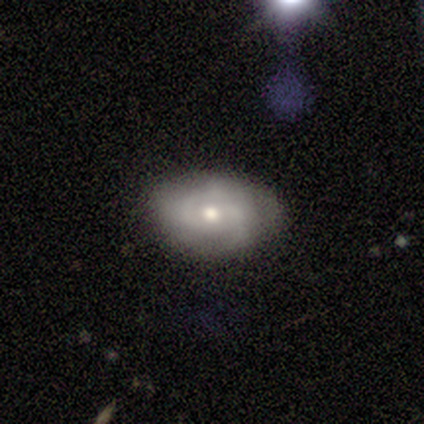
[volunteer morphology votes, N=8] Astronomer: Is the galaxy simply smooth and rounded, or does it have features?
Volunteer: featured or disk — 75%.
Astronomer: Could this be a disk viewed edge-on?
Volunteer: no — 100%.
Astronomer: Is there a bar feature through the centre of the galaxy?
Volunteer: no — 67%.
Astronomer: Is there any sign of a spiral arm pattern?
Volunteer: yes — 100%.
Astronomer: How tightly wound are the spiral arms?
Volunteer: tight — 67%.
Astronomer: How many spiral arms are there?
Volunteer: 2 — 67%.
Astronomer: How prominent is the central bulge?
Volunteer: moderate — 50% (runner-up: small, 33%).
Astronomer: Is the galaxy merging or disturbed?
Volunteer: none — 62%.